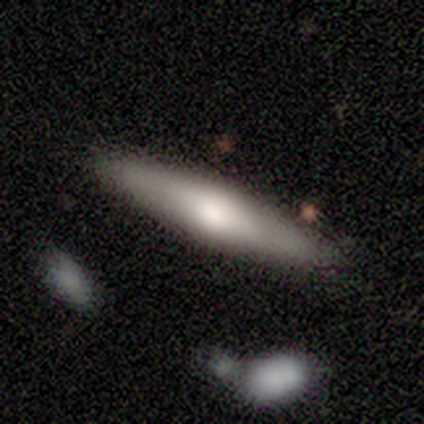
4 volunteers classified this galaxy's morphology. smooth-or-featured: smooth: 75% | featured or disk: 25% | star or artifact: 0%
  how-rounded: cigar-shaped: 100% | round: 0% | in between: 0%
  merging: none: 75% | minor disturbance: 25% | major disturbance: 0% | merger: 0%